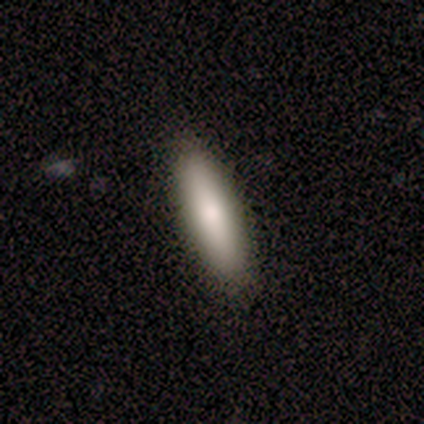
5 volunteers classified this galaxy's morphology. Smooth or featured?
  - smooth: 100% *
  - featured or disk: 0%
  - star or artifact: 0%
How rounded?
  - cigar-shaped: 80% *
  - in between: 20%
  - round: 0%
Merging?
  - none: 100% *
  - minor disturbance: 0%
  - major disturbance: 0%
  - merger: 0%